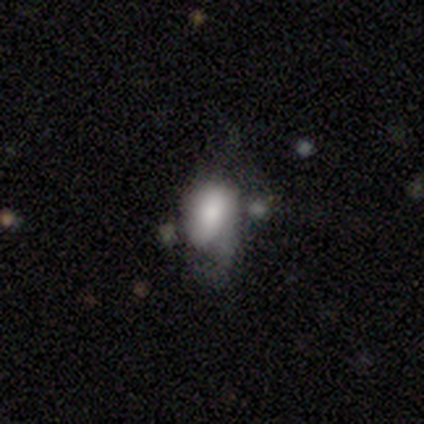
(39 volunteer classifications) Morphology: type=smooth (64%); roundness=in between (80%); merging=major disturbance (40%).